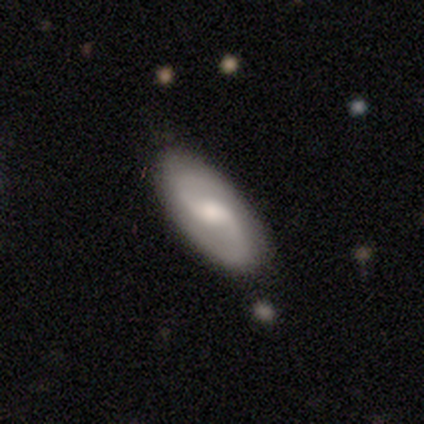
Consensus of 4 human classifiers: This is likely a featured or disk galaxy (75%). It is clearly not viewed edge-on (100%). Bar: likely weak (67%). Spiral arm pattern: clearly yes (100%). Spiral arm count: likely 2 (67%). Spiral winding: likely medium (67%). Central bulge: clearly moderate (100%). Merging: clearly none (100%).